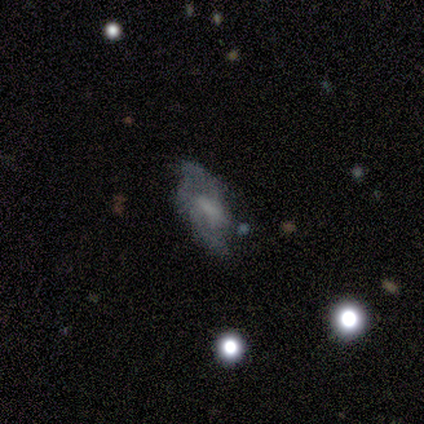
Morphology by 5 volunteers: type=featured or disk (60%); edge-on=no (100%); bar=no (67%); spiral arms=no (67%); bulge=moderate (33%, tied with small and none); merging=none (40%, tied with merger).